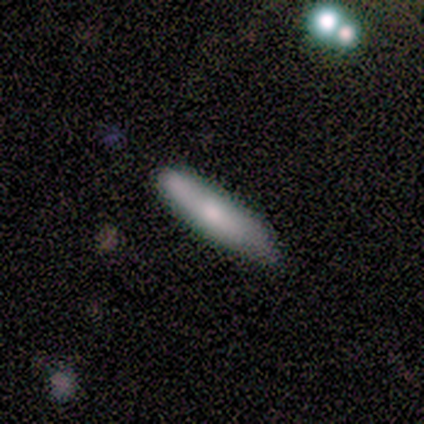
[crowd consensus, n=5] Consensus on every question: smooth or featured — smooth (100%); how rounded — cigar-shaped (100%); merging — none (100%).